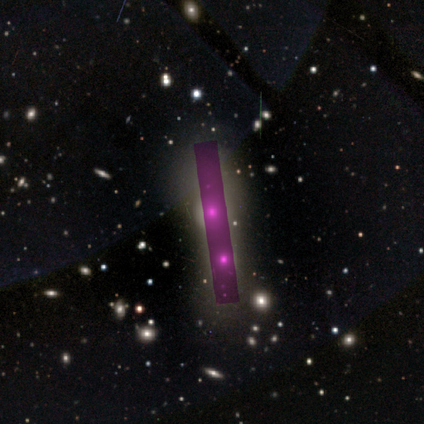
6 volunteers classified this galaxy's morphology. This is likely a smooth galaxy (67%). How rounded: likely round (75%). Merging: likely merger (60%).